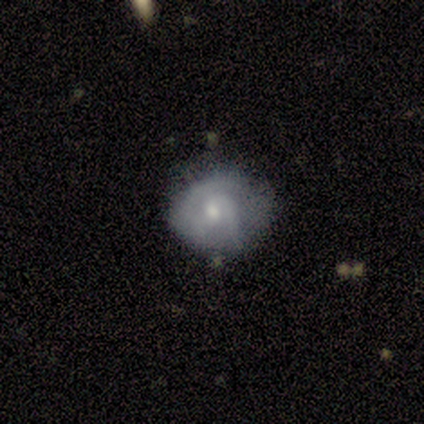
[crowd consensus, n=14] A featured or disk galaxy (57%) with no bar (57%), 2 (71%) tight (71%) spiral arms (100%) and a moderate central bulge (71%). Merging: none (57%).